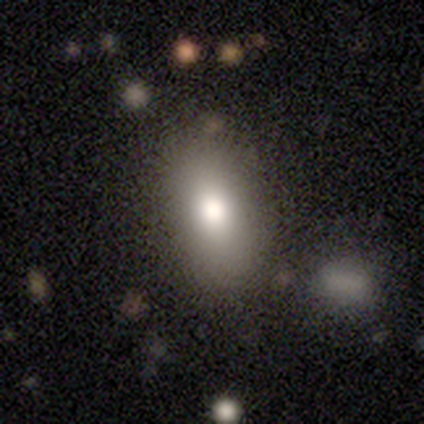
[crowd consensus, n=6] Morphology: type=smooth (83%); roundness=in between (100%); merging=none (100%).